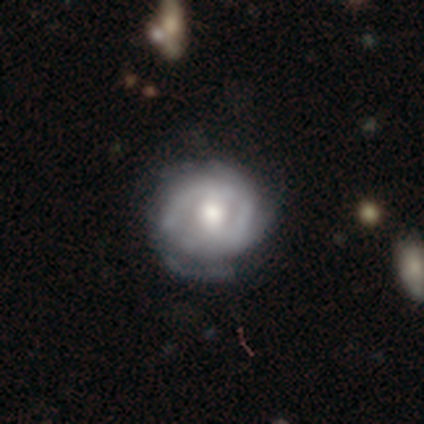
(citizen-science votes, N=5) This is likely a featured or disk galaxy (60%). It is clearly not viewed edge-on (100%). Bar: clearly no (100%). Spiral arm pattern: clearly yes (100%). Spiral arm count: likely 2 (67%). Spiral winding: clearly tight (100%). Central bulge: likely large (67%). Merging: clearly none (100%).